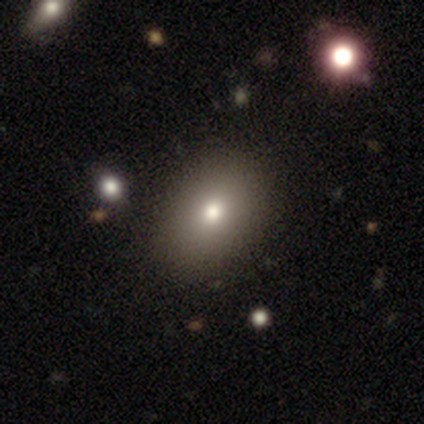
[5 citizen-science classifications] Smooth or featured? 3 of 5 (60%) said featured or disk. Edge-on disk? 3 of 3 (100%) said no. Bar? 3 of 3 (100%) said no. Spiral arms? 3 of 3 (100%) said no. Bulge size? 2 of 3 (67%) said moderate. Merging? 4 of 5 (80%) said none.